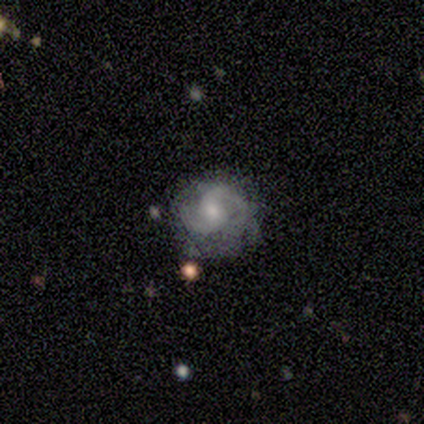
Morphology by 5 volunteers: type=featured or disk (100%); edge-on=no (100%); bar=weak (40%, tied with no); spiral arms=yes (100%); winding=medium (80%); arm count=2 (80%); bulge=small (60%); merging=none (40%, tied with minor disturbance).